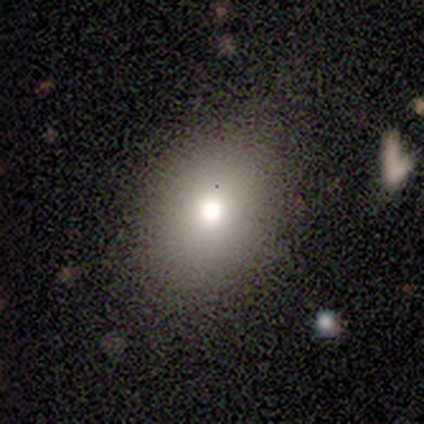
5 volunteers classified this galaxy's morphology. smooth_or_featured: smooth (p=0.80) [alt: star or artifact p=0.20]
how_rounded: round (p=0.50) [tied with: in between p=0.50]
merging: none (p=1.00)